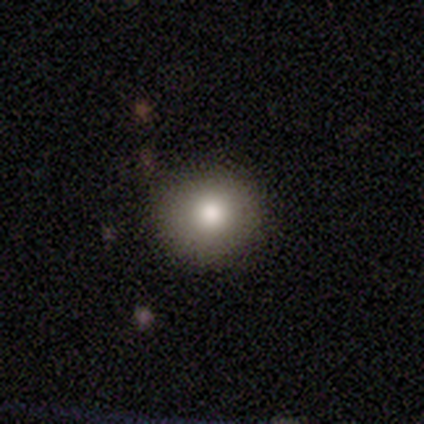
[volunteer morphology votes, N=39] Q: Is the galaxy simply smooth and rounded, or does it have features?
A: smooth — 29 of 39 (74%).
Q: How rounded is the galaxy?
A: round — 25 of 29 (86%).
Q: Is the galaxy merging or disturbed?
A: none — 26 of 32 (81%).